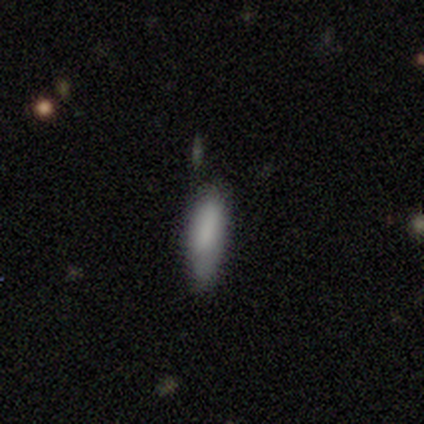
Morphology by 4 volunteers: Overall: smooth (50%, tied with featured or disk). How rounded: in between (100%). Merging: none (75%).